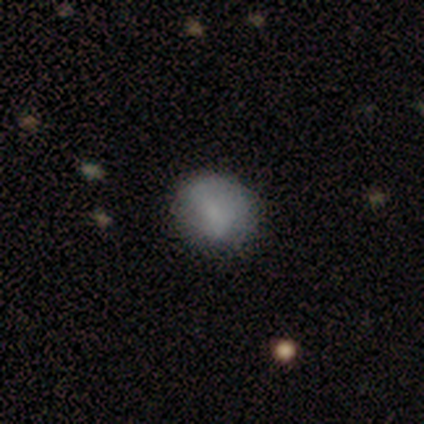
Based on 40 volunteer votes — Overall: smooth (68%). How rounded: round (70%). Merging: none (63%; minor disturbance 31%).